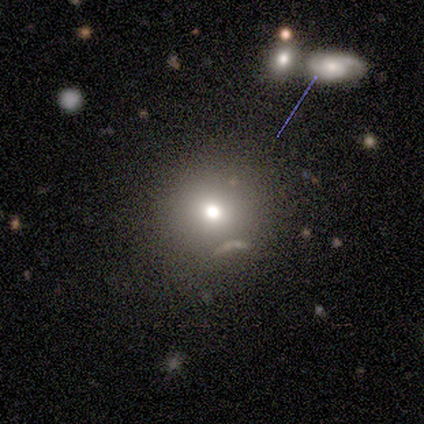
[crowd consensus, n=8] Smooth or featured? smooth (100%)
How rounded? round (100%)
Merging? none (62%)